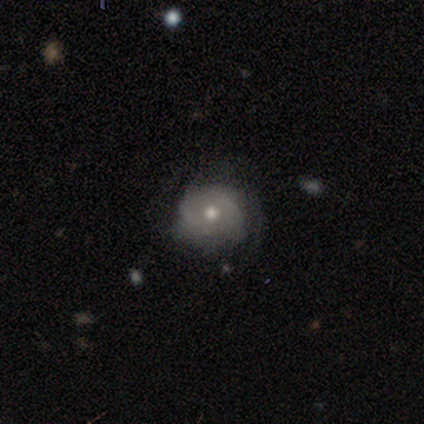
This appears to be a smooth galaxy with no disk features (33%, tied with featured or disk and star or artifact) that is round (100%). Merging: none (50%, tied with minor disturbance).